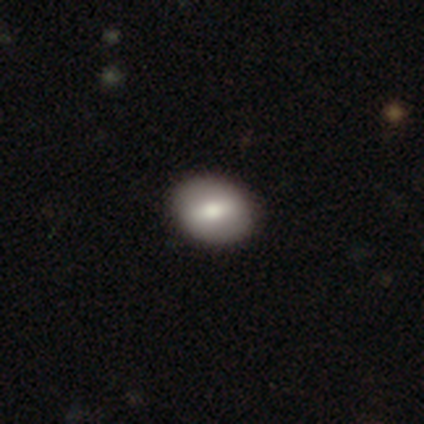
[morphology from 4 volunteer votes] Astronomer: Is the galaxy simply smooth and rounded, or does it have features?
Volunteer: featured or disk — 75%.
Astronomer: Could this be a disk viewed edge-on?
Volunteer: no — 100%.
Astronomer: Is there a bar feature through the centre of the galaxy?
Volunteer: strong — 33%, tied with weak and no at 33%.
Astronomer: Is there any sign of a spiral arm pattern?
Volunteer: no — 100%.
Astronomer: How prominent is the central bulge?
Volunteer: large — 67%.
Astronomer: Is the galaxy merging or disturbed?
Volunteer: none — 100%.